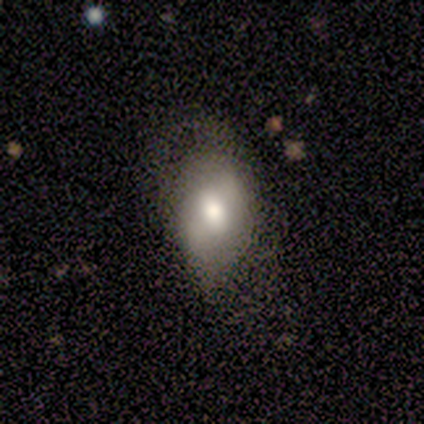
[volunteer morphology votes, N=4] A smooth galaxy with no disk features (50%) that is in between round and cigar-shaped (100%). Merging: none (67%).